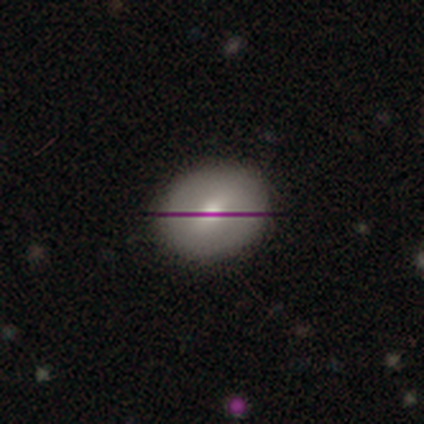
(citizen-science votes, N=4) Morphology: type=smooth (75%); roundness=round (67%); merging=none (67%).